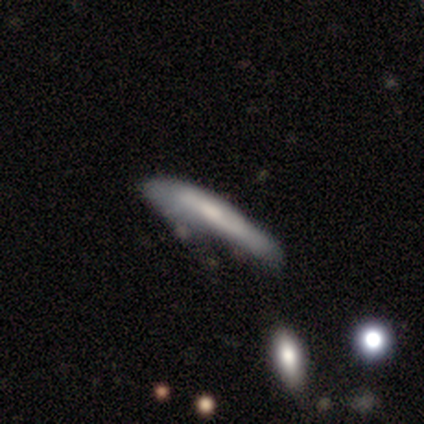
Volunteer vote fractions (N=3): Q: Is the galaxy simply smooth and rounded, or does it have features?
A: featured or disk — 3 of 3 (100%).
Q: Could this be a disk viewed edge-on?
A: no — 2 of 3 (67%).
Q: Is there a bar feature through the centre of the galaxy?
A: weak — 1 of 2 (50%, tied with no).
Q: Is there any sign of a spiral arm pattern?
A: no — 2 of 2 (100%).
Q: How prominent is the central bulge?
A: moderate — 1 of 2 (50%, tied with none).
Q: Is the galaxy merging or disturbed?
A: none — 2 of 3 (67%).